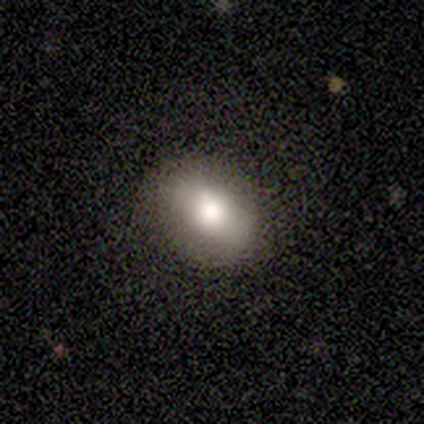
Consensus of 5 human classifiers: Smooth or featured? smooth (60%)
How rounded? round (67%)
Merging? none (50%, tied with minor disturbance)